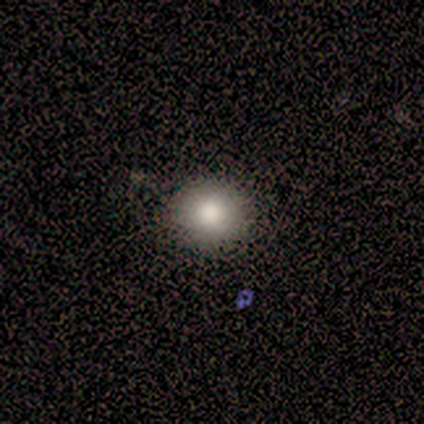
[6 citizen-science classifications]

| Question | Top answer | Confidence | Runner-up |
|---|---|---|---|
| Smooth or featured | smooth | 100% | — |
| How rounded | round | 83% | in between (17%) |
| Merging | none | 100% | — |